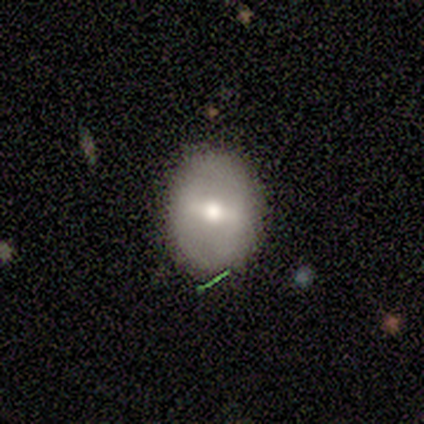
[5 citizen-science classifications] smooth_or_featured: smooth (p=1.00)
how_rounded: in between (p=0.60) [alt: round p=0.40]
merging: none (p=0.80) [alt: minor disturbance p=0.20]